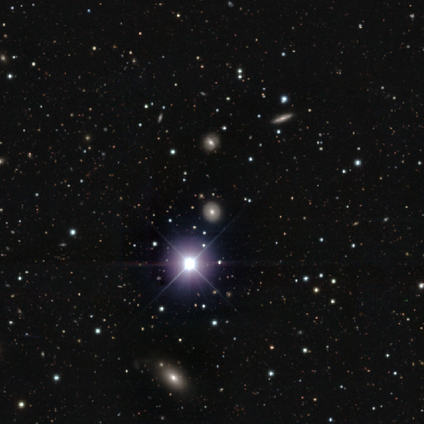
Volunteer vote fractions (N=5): Overall: star or artifact (80%).